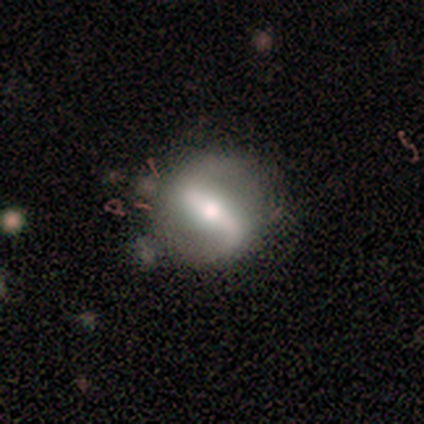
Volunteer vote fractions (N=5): smooth 60%, featured or disk 40%, star or artifact 0%. Down the decision tree: how rounded — in between (67%); merging — none (80%).